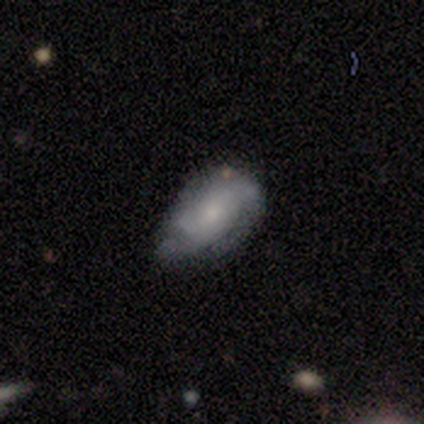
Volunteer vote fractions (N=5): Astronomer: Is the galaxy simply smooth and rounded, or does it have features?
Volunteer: smooth — 60%.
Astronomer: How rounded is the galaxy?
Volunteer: in between — 100%.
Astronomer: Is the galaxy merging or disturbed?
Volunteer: none — 75%.